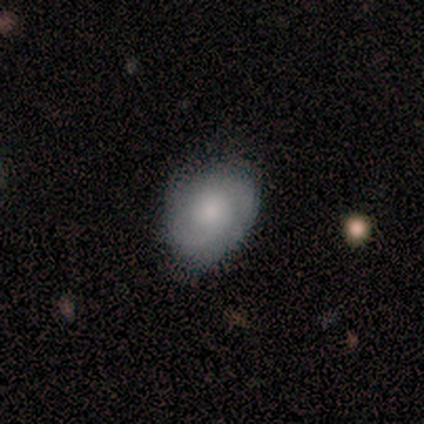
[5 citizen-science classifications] Smooth or featured? featured or disk (80%)
Edge-on disk? no (100%)
Bar? no (100%)
Spiral arms? yes (100%)
Spiral winding? tight (50%, tied with medium)
Spiral arm count? 2 (50%, tied with can't tell)
Bulge size? none (50%)
Merging? none (60%)